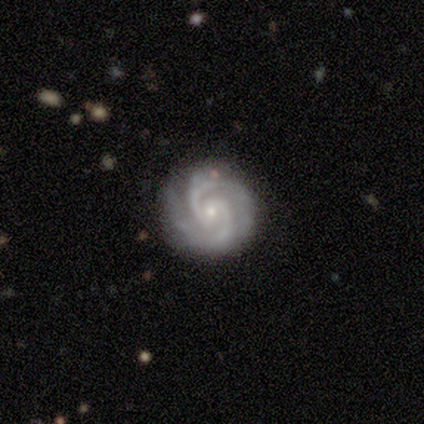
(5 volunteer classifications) Volunteers were most divided on "bar": no: 80%, weak: 20%, strong: 0%. More confident: smooth or featured — featured or disk (100%); edge-on disk — no (100%); spiral arms — yes (100%); spiral arm count — 2 (100%); bulge size — small (100%); merging — none (100%); spiral winding — tight (80%).